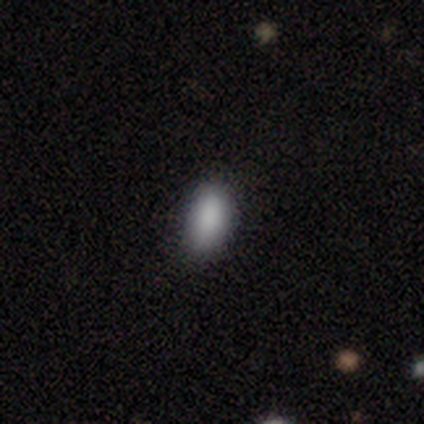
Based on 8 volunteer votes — This appears to be a smooth galaxy with no disk features (100%) that is in between round and cigar-shaped (88%). Merging: none (75%).